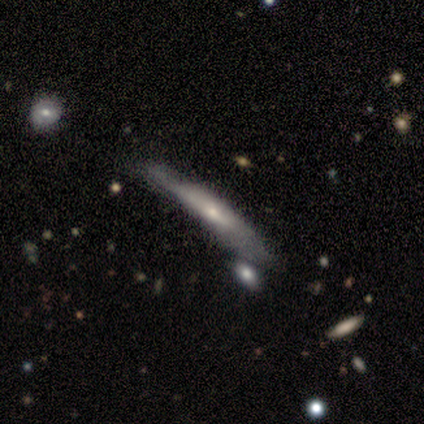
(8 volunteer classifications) A featured or disk galaxy (75%) viewed edge-on (100%) with a rounded central bulge (67%). Merging: none (50%).